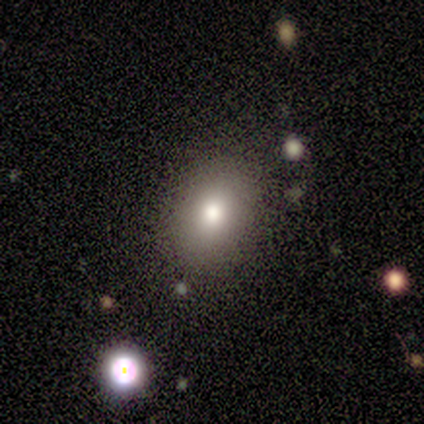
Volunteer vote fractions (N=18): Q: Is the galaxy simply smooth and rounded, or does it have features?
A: smooth — 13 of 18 (72%).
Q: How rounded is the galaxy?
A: in between — 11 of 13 (85%).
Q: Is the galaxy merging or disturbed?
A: none — 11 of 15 (73%).